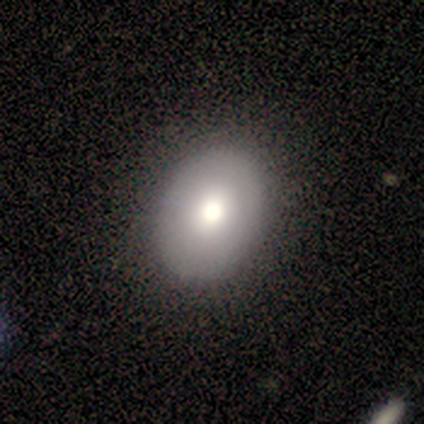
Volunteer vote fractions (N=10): A smooth galaxy with no disk features (70%) that is in between round and cigar-shaped (71%).

Vote fractions:
- Smooth or featured? smooth: 70% / featured or disk: 20% / star or artifact: 10%
- How rounded? in between: 71% / round: 29% / cigar-shaped: 0%
- Merging? none: 89% / minor disturbance: 11% / major disturbance: 0% / merger: 0%